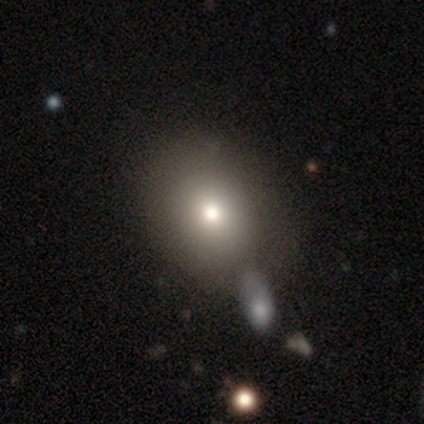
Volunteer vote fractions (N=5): smooth-or-featured: smooth: 80% | star or artifact: 20% | featured or disk: 0%
  how-rounded: round: 75% | in between: 25% | cigar-shaped: 0%
  merging: none: 50% | minor disturbance: 25% | merger: 25% | major disturbance: 0%